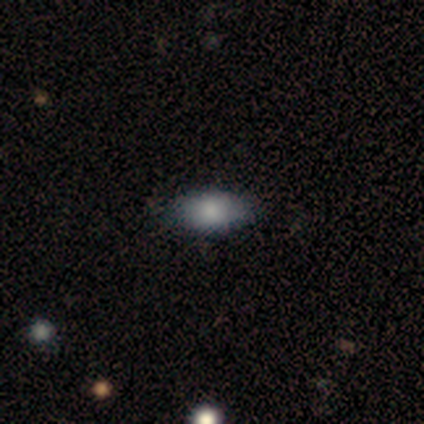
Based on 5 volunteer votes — Overall: smooth (60%; featured or disk 20%). How rounded: in between (100%). Merging: none (75%).